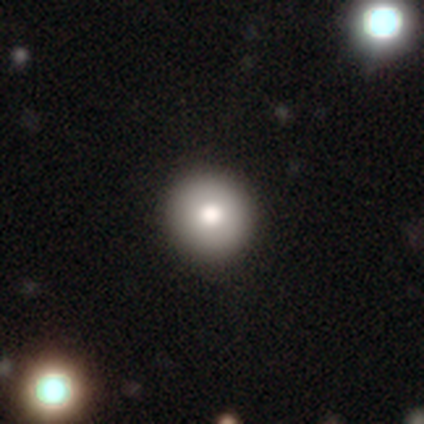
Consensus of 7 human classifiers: Consensus on every question: smooth or featured — smooth (100%); how rounded — round (100%); merging — none (100%).